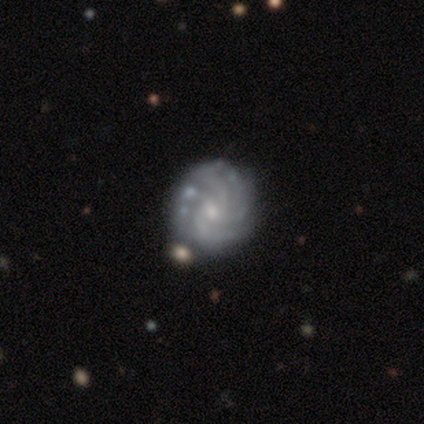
Morphology: type=featured or disk (90%); edge-on=no (100%); bar=no (61%); spiral arms=yes (100%); winding=tight (68%); arm count=4 (32%); bulge=small (82%); merging=none (68%).